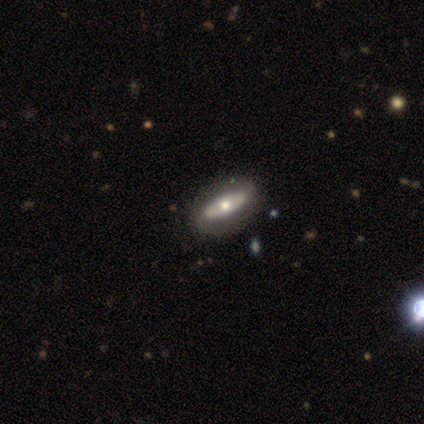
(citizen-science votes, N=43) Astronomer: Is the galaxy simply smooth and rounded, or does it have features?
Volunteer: featured or disk — 67%.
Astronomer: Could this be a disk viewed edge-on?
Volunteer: no — 90%.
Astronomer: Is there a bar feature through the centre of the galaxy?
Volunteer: no — 77%.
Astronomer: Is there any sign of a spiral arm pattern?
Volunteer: no — 69%.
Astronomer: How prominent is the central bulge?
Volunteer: moderate — 65%.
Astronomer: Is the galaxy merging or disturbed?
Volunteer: none — 90%.